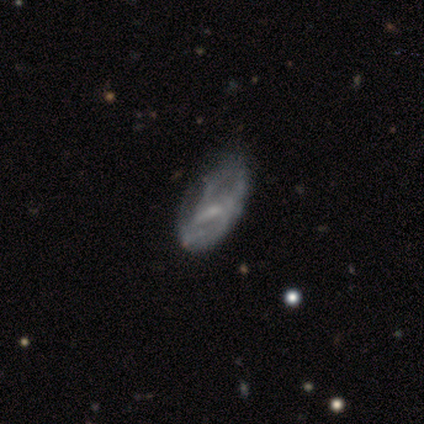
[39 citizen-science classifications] Smooth or featured? 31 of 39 (79%) said featured or disk. Edge-on disk? 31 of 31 (100%) said no. Bar? 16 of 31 (52%) said weak. Spiral arms? 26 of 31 (84%) said yes. Spiral winding? 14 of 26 (54%) said medium. Spiral arm count? 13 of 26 (50%, tied with can't tell) said 2. Bulge size? 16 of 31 (52%) said small. Merging? 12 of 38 (32%) said minor disturbance.